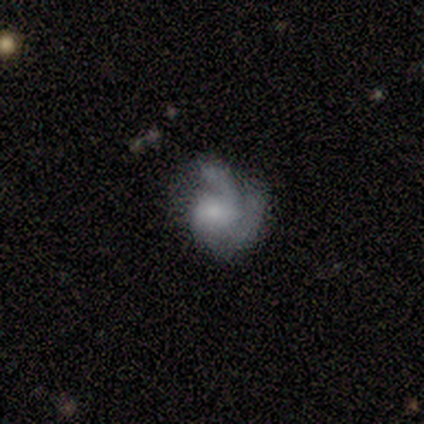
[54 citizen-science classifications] smooth_or_featured: featured or disk (p=0.76) [alt: smooth p=0.20]
disk_edge_on: no (p=1.00)
bar: no (p=0.73) [alt: weak p=0.22]
has_spiral_arms: yes (p=0.85) [alt: no p=0.15]
spiral_winding: tight (p=0.49) [alt: medium p=0.37]
spiral_arm_count: 2 (p=0.83) [alt: can't tell p=0.14]
bulge_size: moderate (p=0.34) [alt: small p=0.32]
merging: none (p=0.35) [tied with: major disturbance p=0.35]